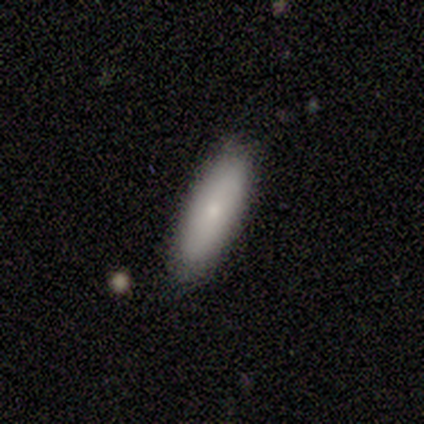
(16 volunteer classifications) smooth-or-featured: smooth: 75% | featured or disk: 19% | star or artifact: 6%
  how-rounded: in between: 58% | cigar-shaped: 42% | round: 0%
  merging: none: 93% | minor disturbance: 7% | major disturbance: 0% | merger: 0%